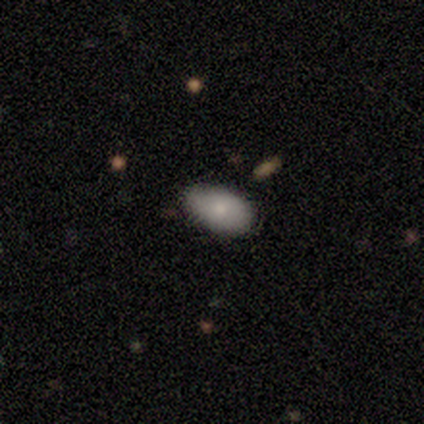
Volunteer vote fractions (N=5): smooth-or-featured: smooth: 60% | featured or disk: 40% | star or artifact: 0%
  how-rounded: in between: 100% | round: 0% | cigar-shaped: 0%
  merging: none: 100% | minor disturbance: 0% | major disturbance: 0% | merger: 0%